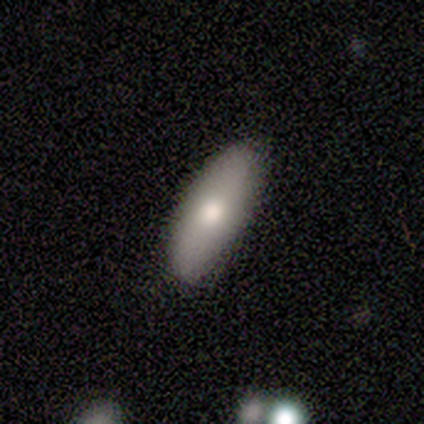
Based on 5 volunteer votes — A smooth galaxy with no disk features (100%) that is cigar-shaped (60%).

Vote fractions:
- Smooth or featured? smooth: 100% / featured or disk: 0% / star or artifact: 0%
- How rounded? cigar-shaped: 60% / in between: 40% / round: 0%
- Merging? none: 100% / minor disturbance: 0% / major disturbance: 0% / merger: 0%